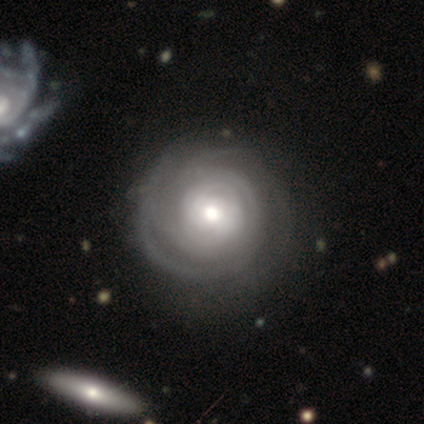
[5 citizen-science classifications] This is clearly a featured or disk galaxy (100%). It is clearly not viewed edge-on (100%). Bar: likely no (60%). Spiral arm pattern: clearly yes (100%). Spiral arm count: marginally 2 (40%, tied with 3). Spiral winding: clearly tight (80%). Central bulge: clearly large (80%). Merging: likely none (60%).